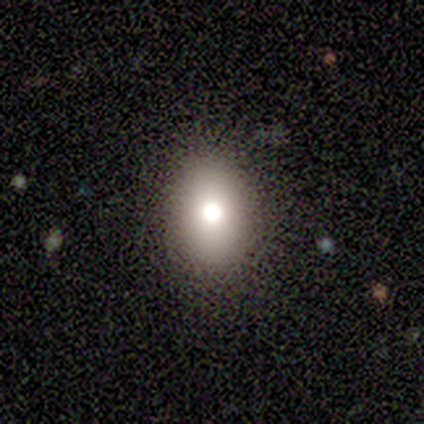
This appears to be a smooth galaxy with no disk features (100%) that is in between round and cigar-shaped (100%). Merging: none (100%).